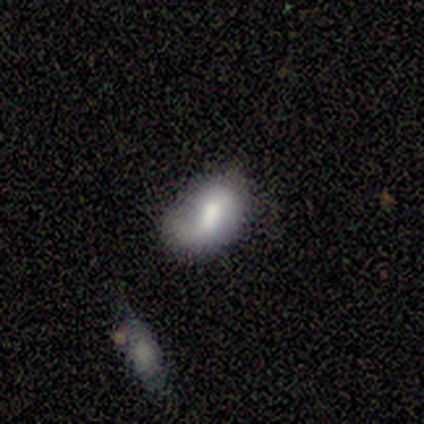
Smooth or featured? 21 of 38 (55%) said smooth. How rounded? 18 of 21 (86%) said in between. Merging? 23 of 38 (61%) said none.